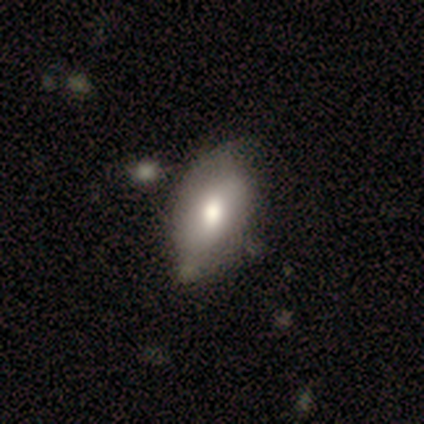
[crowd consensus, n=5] A smooth galaxy with no disk features (60%) that is in between round and cigar-shaped (67%).

Vote fractions:
- Smooth or featured? smooth: 60% / featured or disk: 20% / star or artifact: 20%
- How rounded? in between: 67% / round: 33% / cigar-shaped: 0%
- Merging? none: 50% (tied) / minor disturbance: 50% (tied) / major disturbance: 0% / merger: 0%